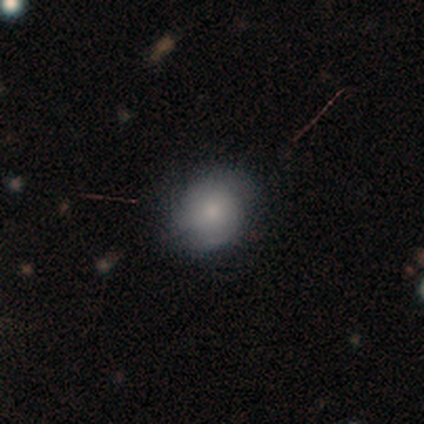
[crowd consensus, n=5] smooth 60%, featured or disk 40%, star or artifact 0%. Down the decision tree: how rounded — round (100%); merging — none (100%).